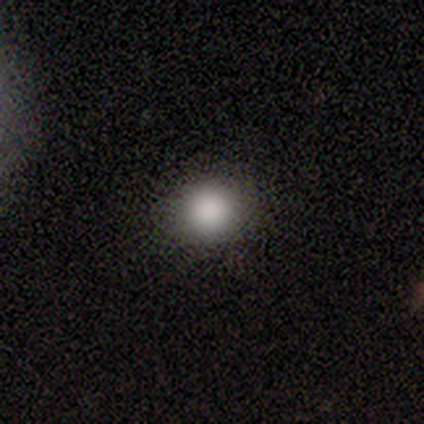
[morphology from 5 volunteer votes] Smooth or featured: smooth — 100%
How rounded: round — 60% (in between — 40%)
Merging: none — 80% (minor disturbance — 20%)